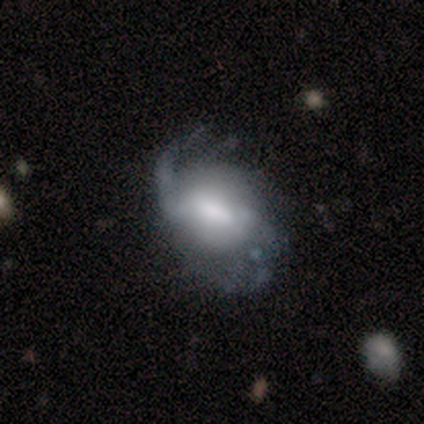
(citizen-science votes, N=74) featured or disk 77%, smooth 18%, star or artifact 5%. Down the decision tree: edge-on disk — no (100%); bar — strong (47%); spiral arms — yes (95%); spiral arm count — 2 (44%); spiral winding — loose (48%); bulge size — large (39%); merging — none (40%).